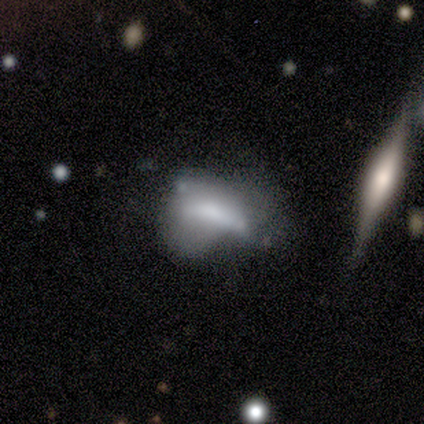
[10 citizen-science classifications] smooth 60%, featured or disk 30%, star or artifact 10%. Down the decision tree: how rounded — in between (83%); merging — major disturbance (67%).